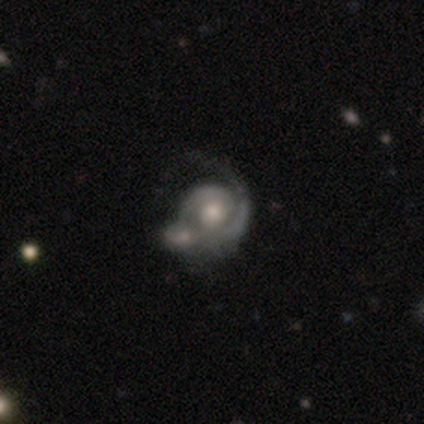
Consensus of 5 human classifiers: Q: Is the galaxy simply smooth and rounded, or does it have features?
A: featured or disk — 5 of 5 (100%).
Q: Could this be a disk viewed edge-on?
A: no — 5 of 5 (100%).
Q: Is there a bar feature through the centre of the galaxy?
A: no — 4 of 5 (80%).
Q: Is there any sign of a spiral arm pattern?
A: yes — 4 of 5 (80%).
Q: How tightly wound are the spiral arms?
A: tight — 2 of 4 (50%, tied with medium).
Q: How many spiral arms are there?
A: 1 — 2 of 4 (50%, tied with 2).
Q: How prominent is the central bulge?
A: small — 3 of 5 (60%).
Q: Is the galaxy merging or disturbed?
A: merger — 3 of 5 (60%).